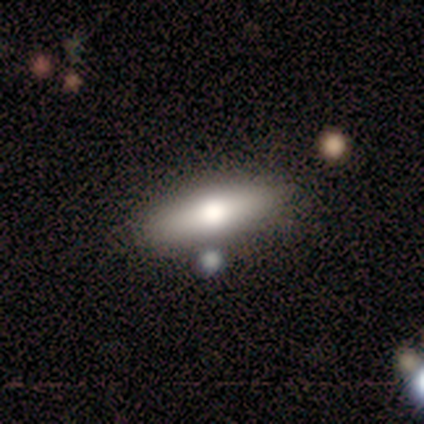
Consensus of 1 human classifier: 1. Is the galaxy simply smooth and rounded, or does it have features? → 100% smooth, 0% featured or disk, 0% star or artifact.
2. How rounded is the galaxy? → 100% cigar-shaped, 0% round, 0% in between.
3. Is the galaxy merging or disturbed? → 100% minor disturbance, 0% none, 0% major disturbance, 0% merger.